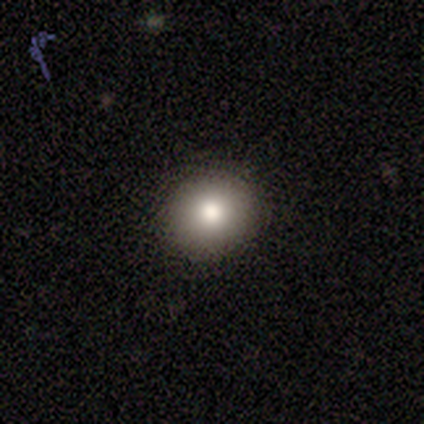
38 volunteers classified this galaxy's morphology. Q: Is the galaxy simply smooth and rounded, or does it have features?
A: smooth — 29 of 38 (76%).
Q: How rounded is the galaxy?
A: round — 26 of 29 (90%).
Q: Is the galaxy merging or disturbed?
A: none — 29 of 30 (97%).